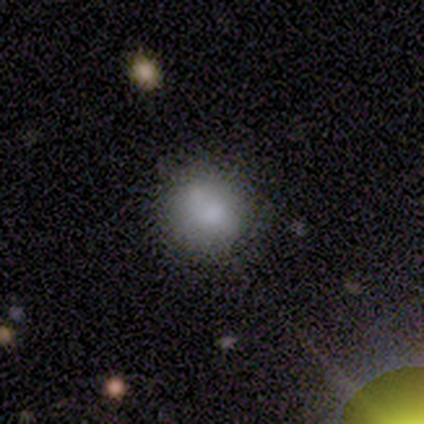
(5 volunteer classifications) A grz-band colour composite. It shows a smooth galaxy with no disk features (100%) that is round (100%). Merging: none (80%).